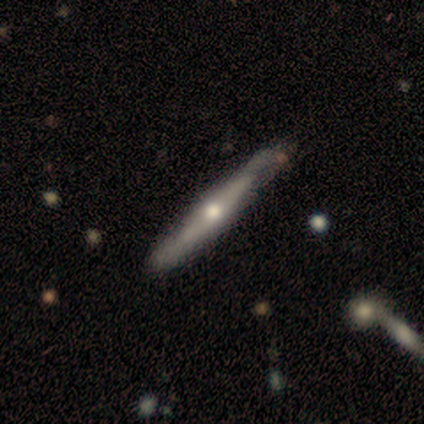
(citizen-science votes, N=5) smooth-or-featured: smooth: 80% | featured or disk: 20% | star or artifact: 0%
  how-rounded: in between: 50% (tied) | cigar-shaped: 50% (tied) | round: 0%
  merging: none: 80% | minor disturbance: 20% | major disturbance: 0% | merger: 0%